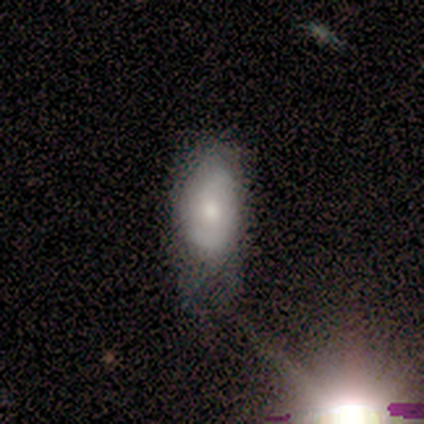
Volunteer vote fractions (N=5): Smooth or featured: featured or disk — 80% (smooth — 20%)
Edge-on disk: no — 100%
Bar: no — 50% (strong — 25%)
Spiral arms: yes — 100%
Spiral winding: medium — 75% (tight — 25%)
Spiral arm count: 2 — 75% (can't tell — 25%)
Bulge size: moderate — 50% (large — 25%)
Merging: none — 60% (minor disturbance — 20%)